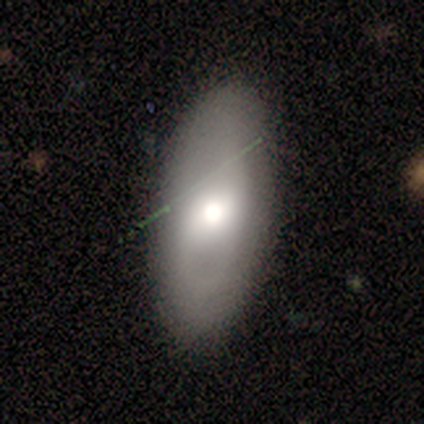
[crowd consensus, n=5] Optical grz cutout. It shows a featured or disk galaxy (60%) with a weak bar (67%), tight (50%, tied with loose) spiral arms (67%) and a moderate central bulge (67%). Merging: none (100%).